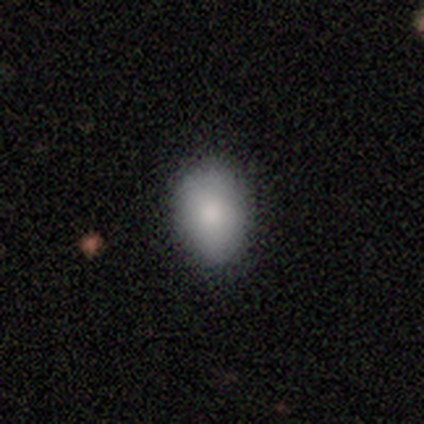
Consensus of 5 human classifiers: Volunteers were most divided on "smooth or featured": smooth: 80%, featured or disk: 20%, star or artifact: 0%. More confident: how rounded — in between (100%); merging — none (80%).